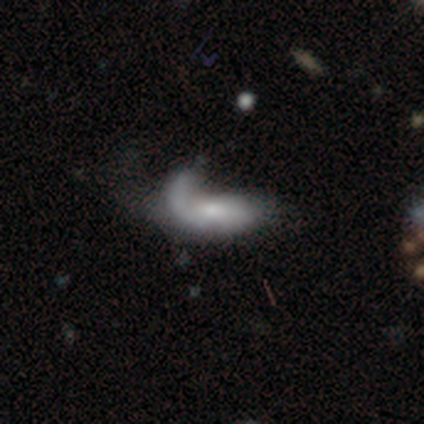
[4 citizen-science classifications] Morphology: type=smooth (100%); roundness=in between (75%); merging=minor disturbance (50%).